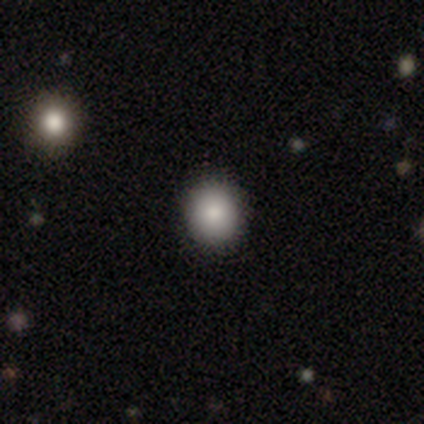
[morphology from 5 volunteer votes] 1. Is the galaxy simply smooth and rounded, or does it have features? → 60% smooth, 20% featured or disk, 20% star or artifact.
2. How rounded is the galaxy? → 100% round, 0% in between, 0% cigar-shaped.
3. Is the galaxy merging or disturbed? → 100% none, 0% minor disturbance, 0% major disturbance, 0% merger.